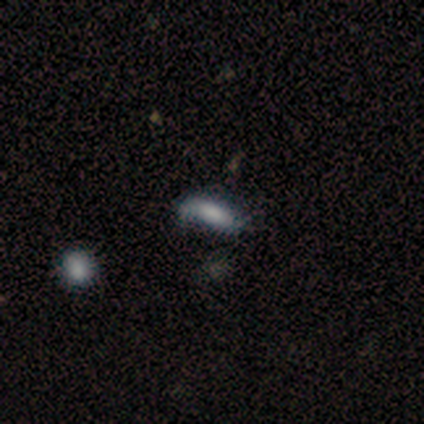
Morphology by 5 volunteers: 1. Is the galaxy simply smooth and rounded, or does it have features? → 60% smooth, 20% featured or disk, 20% star or artifact.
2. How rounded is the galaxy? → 67% in between, 33% cigar-shaped, 0% round.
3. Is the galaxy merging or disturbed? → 50% none (tied), 50% minor disturbance (tied), 0% major disturbance, 0% merger.